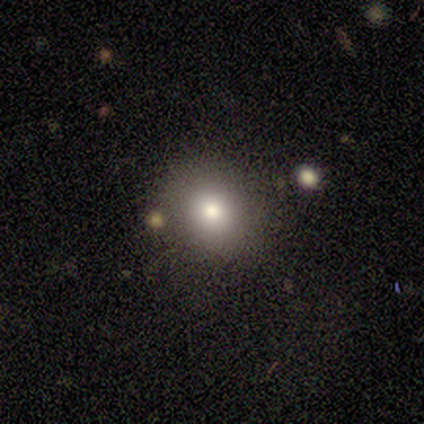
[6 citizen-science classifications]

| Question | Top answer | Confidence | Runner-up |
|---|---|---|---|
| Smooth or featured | smooth | 67% | featured or disk (33%) |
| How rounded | round | 100% | — |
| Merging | none | 100% | — |